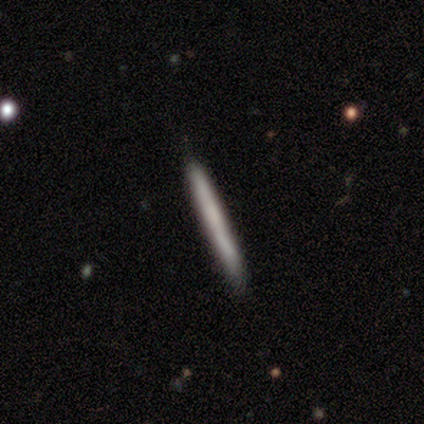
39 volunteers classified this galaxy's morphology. smooth-or-featured: smooth: 72% | featured or disk: 28% | star or artifact: 0%
  how-rounded: cigar-shaped: 100% | round: 0% | in between: 0%
  merging: none: 92% | minor disturbance: 8% | major disturbance: 0% | merger: 0%